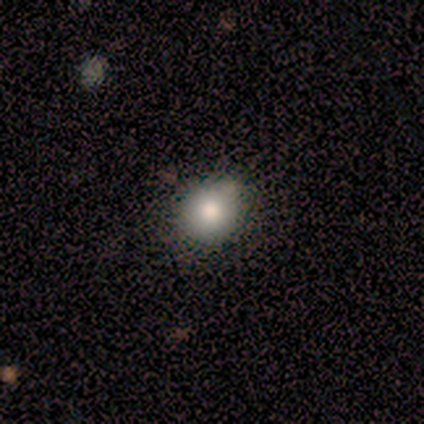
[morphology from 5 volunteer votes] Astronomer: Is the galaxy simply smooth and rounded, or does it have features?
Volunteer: smooth — 60% (runner-up: star or artifact, 40%).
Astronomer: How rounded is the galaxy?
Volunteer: round — 100%.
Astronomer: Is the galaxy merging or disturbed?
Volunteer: none — 33%, tied with minor disturbance and merger at 33%.